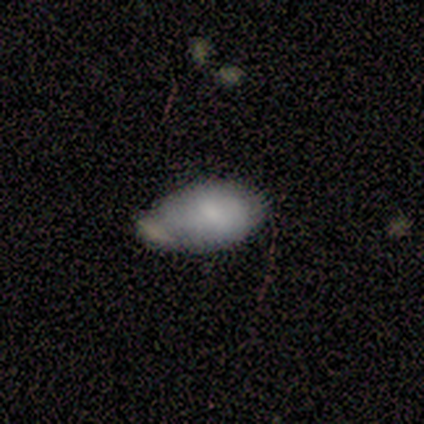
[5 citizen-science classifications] Smooth or featured: smooth — 80% (featured or disk — 20%)
How rounded: in between — 100%
Merging: minor disturbance — 60% (none — 20%)